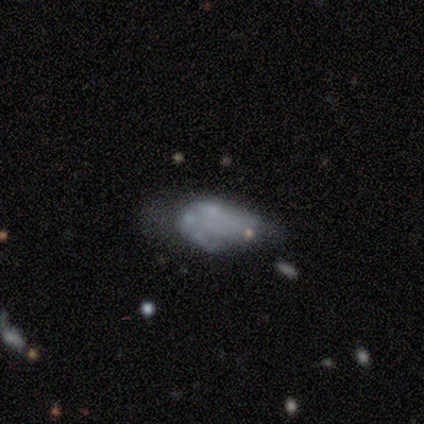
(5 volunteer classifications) Overall: featured or disk (80%). Edge-on disk: no (100%). Bar: no (100%). Spiral arms: no (75%). Bulge size: none (100%). Merging: major disturbance (40%; none 20%).